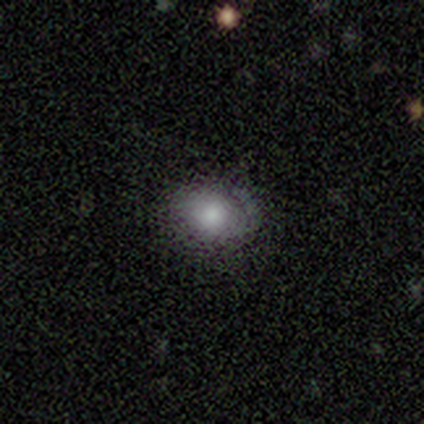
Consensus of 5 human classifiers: Smooth or featured?
  - smooth: 40% * (tied)
  - featured or disk: 40% * (tied)
  - star or artifact: 20%
How rounded?
  - in between: 100% *
  - round: 0%
  - cigar-shaped: 0%
Merging?
  - none: 100% *
  - minor disturbance: 0%
  - major disturbance: 0%
  - merger: 0%